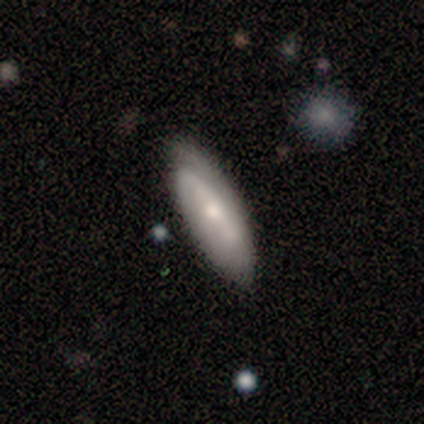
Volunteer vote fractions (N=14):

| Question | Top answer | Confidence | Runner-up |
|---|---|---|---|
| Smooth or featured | smooth | 50% | featured or disk (43%) |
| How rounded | in between | 86% | cigar-shaped (14%) |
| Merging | none | 85% | minor disturbance (15%) |